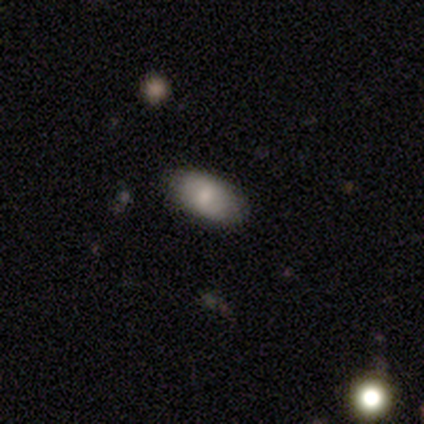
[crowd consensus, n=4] smooth 50%, featured or disk 25%, star or artifact 25%. Down the decision tree: how rounded — in between (100%); merging — none (67%).